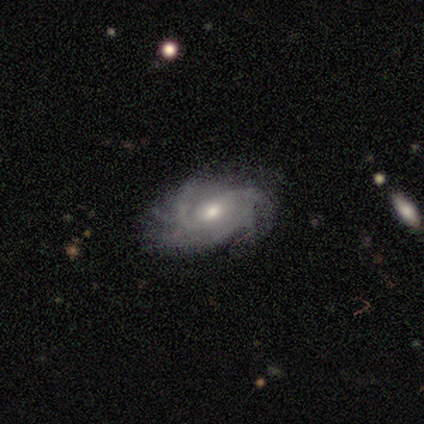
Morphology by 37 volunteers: Overall: featured or disk (81%). Edge-on disk: no (100%). Bar: no (63%; weak 33%). Spiral arms: yes (100%). Spiral arm count: 2 (23%, tied with 3 and can't tell). Spiral winding: medium (53%; tight 33%). Bulge size: moderate (63%; small 23%). Merging: none (69%).